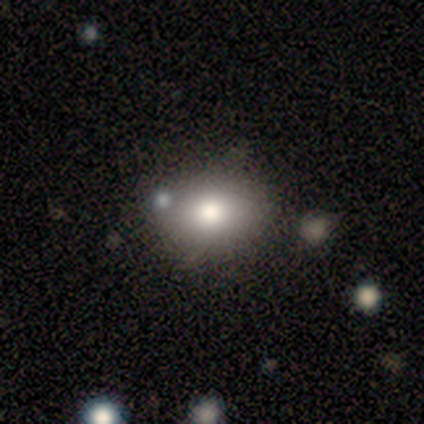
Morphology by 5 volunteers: A featured or disk galaxy (60%) with no bar (100%), no spiral arms (100%) and a large central bulge (50%, tied with moderate).

Vote fractions:
- Smooth or featured? featured or disk: 60% / smooth: 20% / star or artifact: 20%
- Edge-on disk? no: 67% / yes: 33%
- Bar? no: 100% / strong: 0% / weak: 0%
- Spiral arms? no: 100% / yes: 0%
- Bulge size? large: 50% (tied) / moderate: 50% (tied) / dominant: 0% / small: 0% / none: 0%
- Merging? none: 75% / minor disturbance: 25% / major disturbance: 0% / merger: 0%